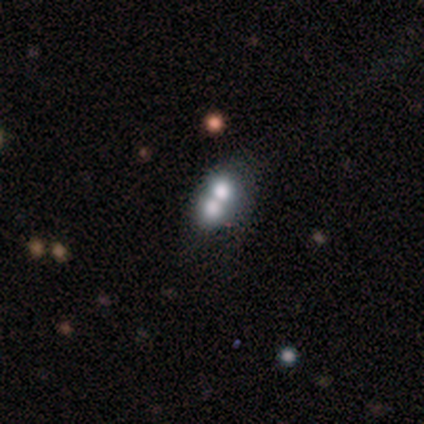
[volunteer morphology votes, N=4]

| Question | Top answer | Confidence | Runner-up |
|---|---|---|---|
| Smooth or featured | smooth | 75% | star or artifact (25%) |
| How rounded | round | 67% | in between (33%) |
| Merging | merger | 100% | — |